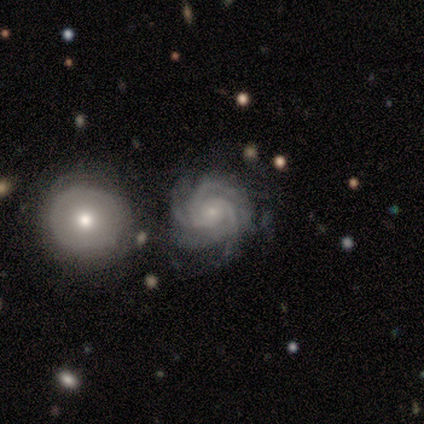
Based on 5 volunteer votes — Smooth or featured? featured or disk (80%)
Edge-on disk? no (100%)
Bar? no (75%)
Spiral arms? yes (100%)
Spiral winding? tight (100%)
Spiral arm count? 3 (75%)
Bulge size? small (100%)
Merging? none (100%)